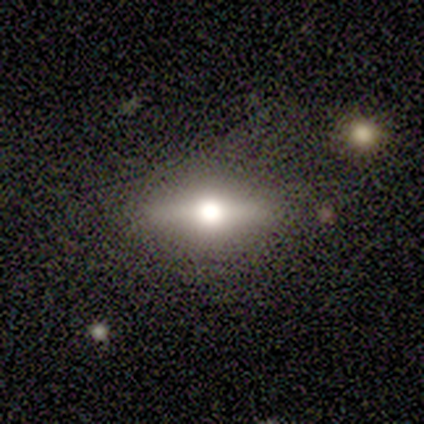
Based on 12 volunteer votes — A featured or disk galaxy (50%) viewed edge-on (83%) with a rounded central bulge (80%). Merging: none (91%).